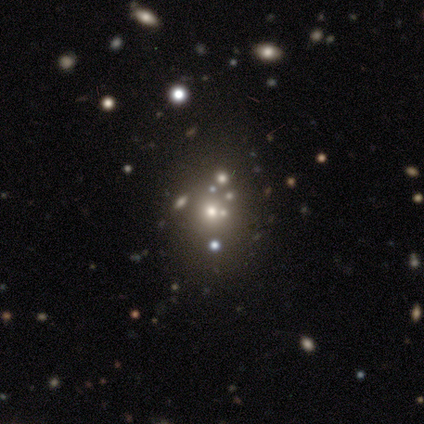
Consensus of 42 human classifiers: Morphology: type=star or artifact (45%).